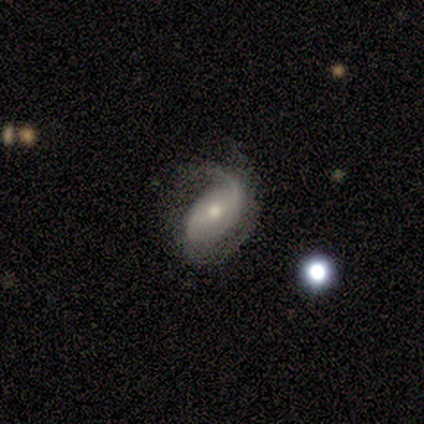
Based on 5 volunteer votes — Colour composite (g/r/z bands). It shows a featured or disk galaxy (100%) with a weak bar (40%, tied with no), 1 (40%, tied with 2) loose (80%) spiral arms (100%) and a small central bulge (80%). Merging: minor disturbance (80%).